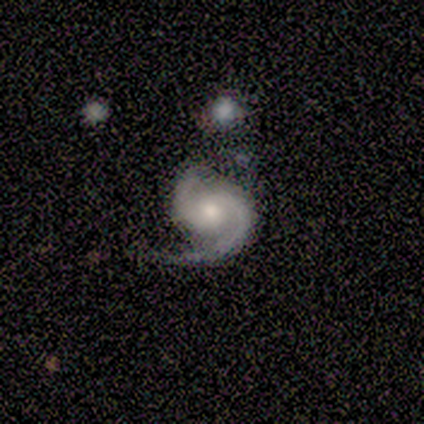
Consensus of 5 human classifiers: A featured or disk galaxy (100%) with a strong bar (50%), 2 (75%) tight (50%, tied with medium) spiral arms (100%) and a moderate central bulge (75%).

Vote fractions:
- Smooth or featured? featured or disk: 100% / smooth: 0% / star or artifact: 0%
- Edge-on disk? no: 80% / yes: 20%
- Bar? strong: 50% / weak: 25% / no: 25%
- Spiral arms? yes: 100% / no: 0%
- Spiral winding? tight: 50% (tied) / medium: 50% (tied) / loose: 0%
- Spiral arm count? 2: 75% / 1: 25% / 3: 0% / 4: 0% / more than 4: 0% / can't tell: 0%
- Bulge size? moderate: 75% / small: 25% / dominant: 0% / large: 0% / none: 0%
- Merging? minor disturbance: 60% / none: 20% / major disturbance: 20% / merger: 0%